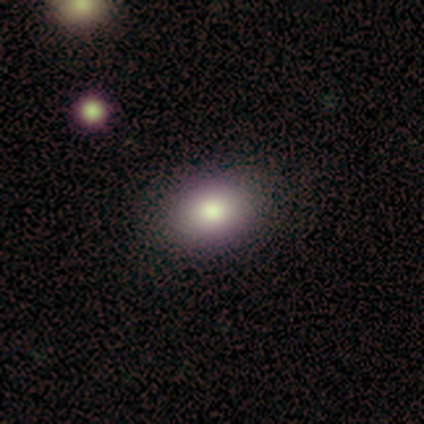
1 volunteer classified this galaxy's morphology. A smooth galaxy with no disk features (100%) that is round (100%). Merging: none (100%).